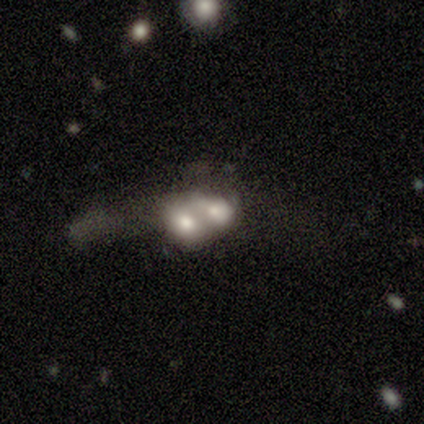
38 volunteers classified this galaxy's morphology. smooth 55%, featured or disk 37%, star or artifact 8%. Down the decision tree: how rounded — in between (86%); merging — merger (74%).